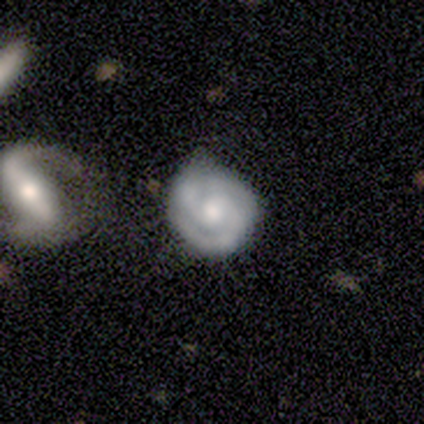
Overall: featured or disk (80%). Edge-on disk: no (100%). Bar: no (75%). Spiral arms: yes (100%). Spiral arm count: 2 (50%; 3 25%). Spiral winding: tight (50%, tied with medium). Bulge size: large (50%; moderate 25%). Merging: none (60%; minor disturbance 40%).